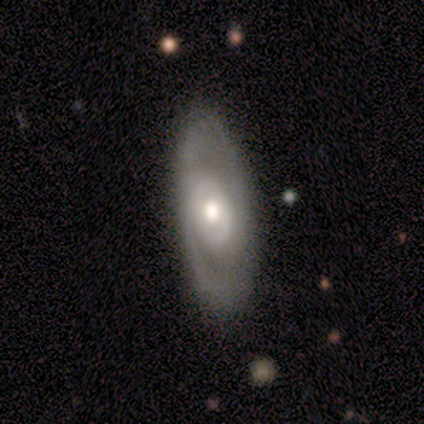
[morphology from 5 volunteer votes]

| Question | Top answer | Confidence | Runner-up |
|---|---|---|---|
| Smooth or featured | smooth | 40% | tied: featured or disk (40%) |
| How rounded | in between | 100% | — |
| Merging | none | 100% | — |